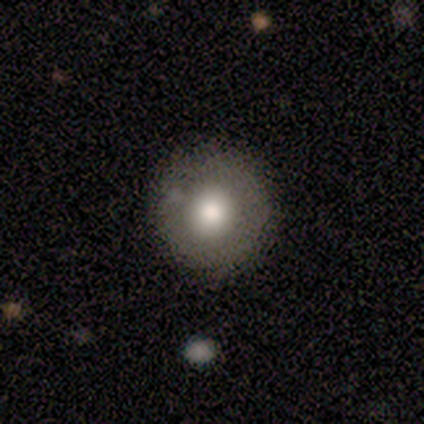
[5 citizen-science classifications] Smooth or featured?
  - smooth: 40% * (tied)
  - star or artifact: 40% * (tied)
  - featured or disk: 20%
How rounded?
  - round: 100% *
  - in between: 0%
  - cigar-shaped: 0%
Merging?
  - none: 100% *
  - minor disturbance: 0%
  - major disturbance: 0%
  - merger: 0%